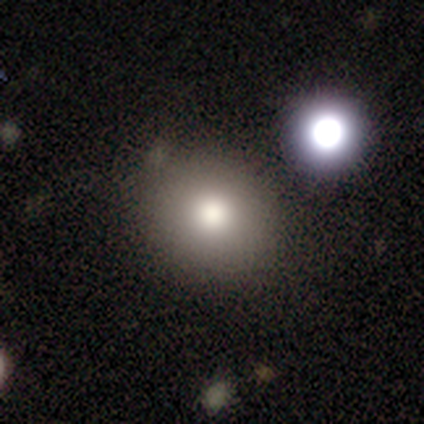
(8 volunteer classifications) Smooth or featured? smooth (75%)
How rounded? round (100%)
Merging? none (71%)